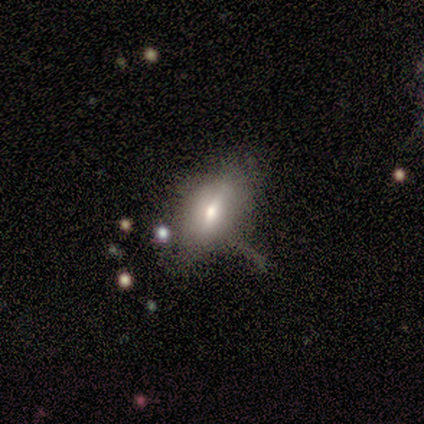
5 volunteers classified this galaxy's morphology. A smooth galaxy with no disk features (60%) that is in between round and cigar-shaped (100%). Merging: none (40%, tied with minor disturbance).